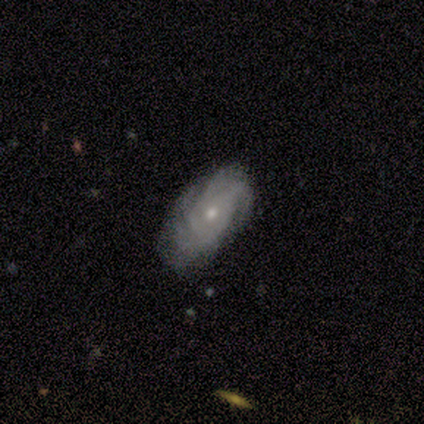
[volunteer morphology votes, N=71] smooth-or-featured: featured or disk: 79% | smooth: 17% | star or artifact: 4%
  disk-edge-on: no: 98% | yes: 2%
    bar: no: 91% | weak: 5% | strong: 4%
    has-spiral-arms: yes: 96% | no: 4%
      spiral-winding: tight: 64% | medium: 32% | loose: 4%
      spiral-arm-count: can't tell: 38% | more than 4: 25% | 4: 23% | 3: 13% | 2: 2% | 1: 0%
    bulge-size: small: 56% | moderate: 42% | none: 2% | dominant: 0% | large: 0%
  merging: none: 68% | minor disturbance: 29% | major disturbance: 1% | merger: 1%